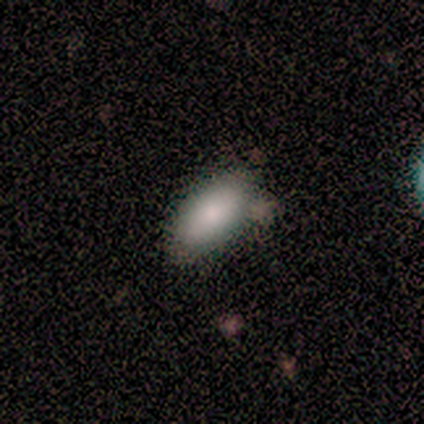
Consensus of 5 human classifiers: smooth-or-featured: smooth: 80% | star or artifact: 20% | featured or disk: 0%
  how-rounded: in between: 100% | round: 0% | cigar-shaped: 0%
  merging: none: 50% | minor disturbance: 25% | major disturbance: 25% | merger: 0%